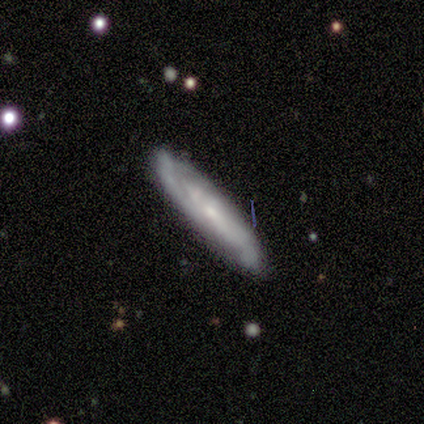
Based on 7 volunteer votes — A featured or disk galaxy (86%) viewed edge-on (50%, tied with no) with a rounded central bulge (67%).

Vote fractions:
- Smooth or featured? featured or disk: 86% / smooth: 14% / star or artifact: 0%
- Edge-on disk? yes: 50% (tied) / no: 50% (tied)
- Edge-on bulge? rounded: 67% / none: 33% / boxy: 0%
- Merging? none: 71% / minor disturbance: 29% / major disturbance: 0% / merger: 0%